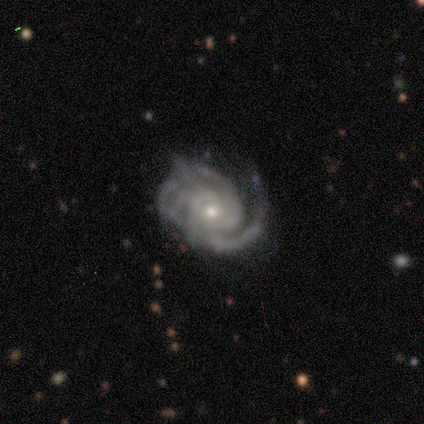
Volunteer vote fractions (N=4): smooth_or_featured: featured or disk (p=0.75) [alt: star or artifact p=0.25]
disk_edge_on: no (p=1.00)
bar: no (p=1.00)
has_spiral_arms: yes (p=1.00)
spiral_winding: tight (p=0.33) [tied with: medium p=0.33, loose p=0.33]
spiral_arm_count: 2 (p=0.33) [tied with: 3 p=0.33, can't tell p=0.33]
bulge_size: small (p=0.67) [alt: moderate p=0.33]
merging: minor disturbance (p=0.67) [alt: none p=0.33]